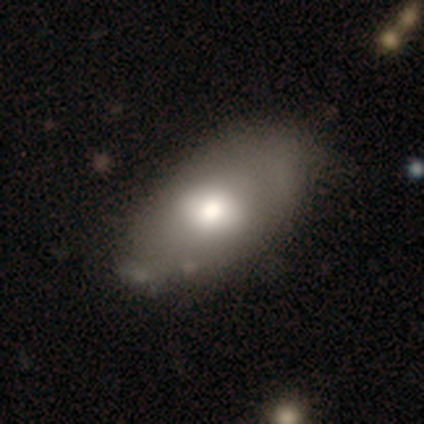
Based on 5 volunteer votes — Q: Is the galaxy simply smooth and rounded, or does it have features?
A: smooth — 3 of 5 (60%).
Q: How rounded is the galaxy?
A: in between — 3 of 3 (100%).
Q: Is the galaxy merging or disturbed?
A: none — 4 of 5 (80%).